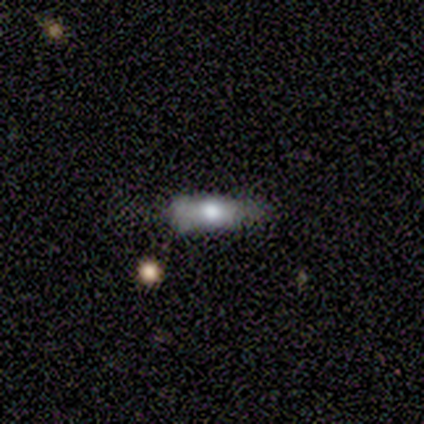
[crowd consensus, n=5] smooth 40% (tied), featured or disk 40% (tied), star or artifact 20%. Down the decision tree: how rounded — in between (50%, tied with cigar-shaped); merging — none (50%).